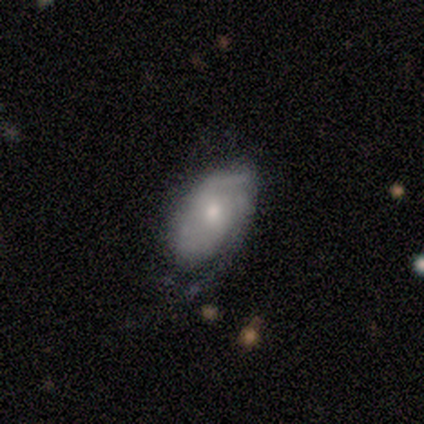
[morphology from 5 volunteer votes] Smooth or featured? featured or disk (60%)
Edge-on disk? no (100%)
Bar? no (67%)
Spiral arms? yes (67%)
Spiral winding? tight (50%, tied with medium)
Spiral arm count? 2 (50%, tied with can't tell)
Bulge size? moderate (100%)
Merging? minor disturbance (75%)